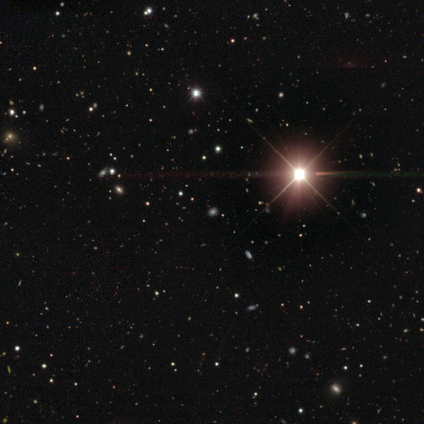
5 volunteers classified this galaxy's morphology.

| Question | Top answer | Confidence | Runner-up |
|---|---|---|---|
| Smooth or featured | star or artifact | 100% | — |